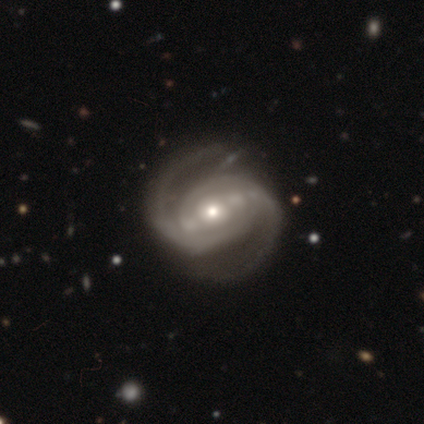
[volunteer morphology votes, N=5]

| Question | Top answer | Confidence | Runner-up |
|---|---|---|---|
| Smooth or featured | featured or disk | 100% | — |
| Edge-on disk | no | 100% | — |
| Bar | no | 60% | strong (20%) |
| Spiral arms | yes | 100% | — |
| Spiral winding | medium | 60% | tight (20%) |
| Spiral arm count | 2 | 80% | 4 (20%) |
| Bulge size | moderate | 60% | small (40%) |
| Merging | none | 60% | minor disturbance (40%) |